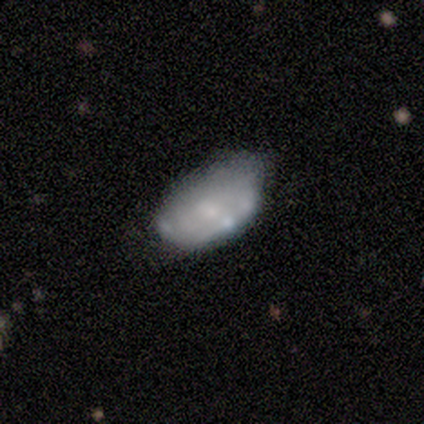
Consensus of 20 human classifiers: A featured or disk galaxy (65%) with no bar (92%), no spiral arms (69%) and a small central bulge (54%). Merging: minor disturbance (50%).